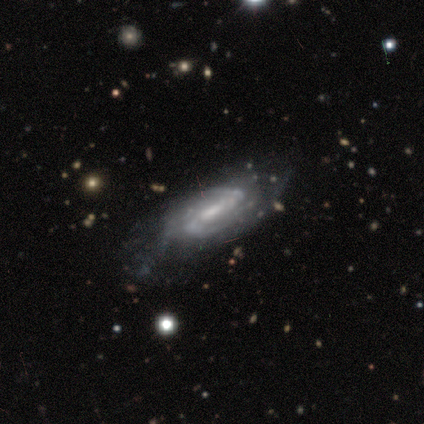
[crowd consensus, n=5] smooth-or-featured: featured or disk: 80% | star or artifact: 20% | smooth: 0%
  disk-edge-on: no: 100% | yes: 0%
    bar: no: 50% | strong: 25% | weak: 25%
    has-spiral-arms: yes: 100% | no: 0%
      spiral-winding: tight: 50% (tied) | loose: 50% (tied) | medium: 0%
      spiral-arm-count: 2: 50% | more than 4: 25% | can't tell: 25% | 1: 0% | 3: 0% | 4: 0%
    bulge-size: moderate: 100% | dominant: 0% | large: 0% | small: 0% | none: 0%
  merging: none: 75% | major disturbance: 25% | minor disturbance: 0% | merger: 0%